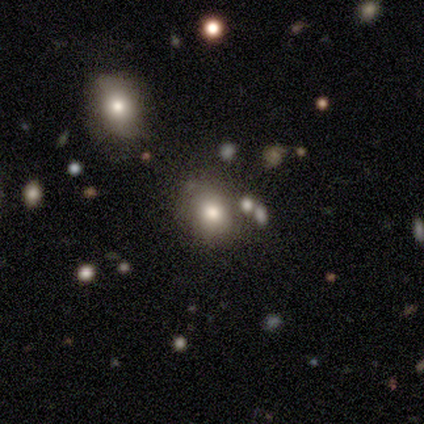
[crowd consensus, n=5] Volunteers were most divided on "merging": none: 80%, merger: 20%, minor disturbance: 0%, major disturbance: 0%. More confident: smooth or featured — smooth (100%); how rounded — round (100%).